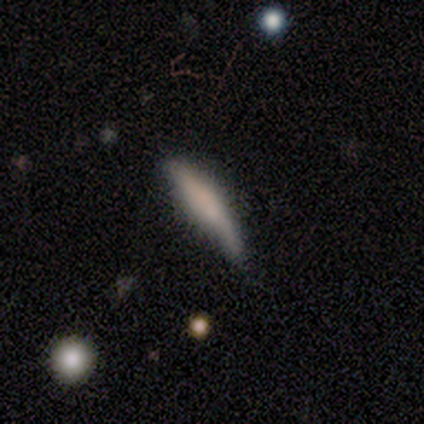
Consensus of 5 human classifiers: smooth-or-featured: smooth: 60% | featured or disk: 20% | star or artifact: 20%
  how-rounded: cigar-shaped: 100% | round: 0% | in between: 0%
  merging: none: 50% (tied) | major disturbance: 50% (tied) | minor disturbance: 0% | merger: 0%